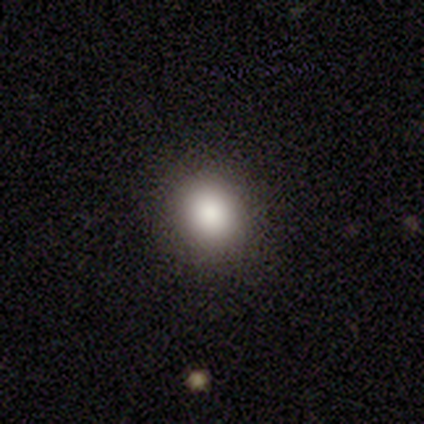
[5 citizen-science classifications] smooth 100%, featured or disk 0%, star or artifact 0%. Down the decision tree: how rounded — in between (60%); merging — none (80%).